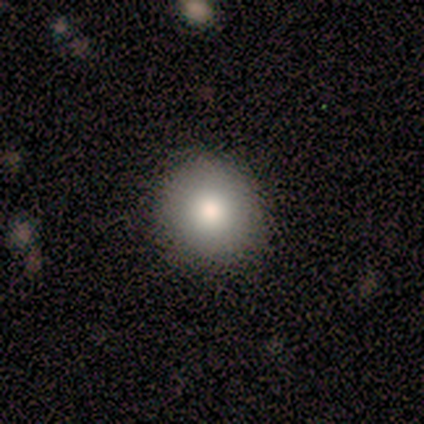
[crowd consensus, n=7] A smooth galaxy with no disk features (100%) that is round (100%). Merging: none (86%).